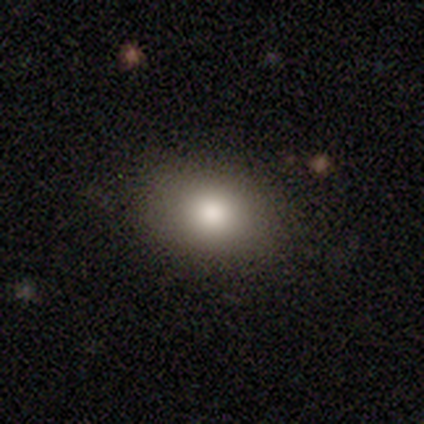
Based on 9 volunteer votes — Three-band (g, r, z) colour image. It shows a smooth galaxy with no disk features (67%) that is round (67%). Merging: none (75%).